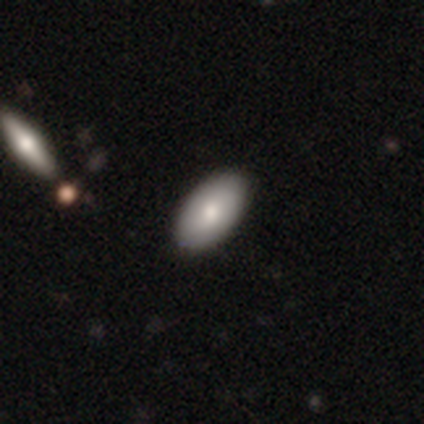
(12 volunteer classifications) Smooth or featured?
  - smooth: 83% *
  - featured or disk: 17%
  - star or artifact: 0%
How rounded?
  - in between: 90% *
  - cigar-shaped: 10%
  - round: 0%
Merging?
  - none: 83% *
  - minor disturbance: 17%
  - major disturbance: 0%
  - merger: 0%